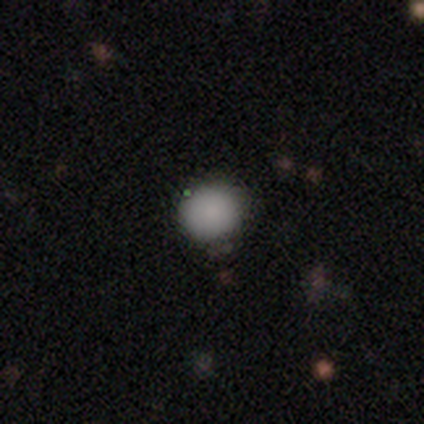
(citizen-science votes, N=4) Smooth or featured? 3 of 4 (75%) said smooth. How rounded? 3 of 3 (100%) said round. Merging? 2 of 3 (67%) said none.